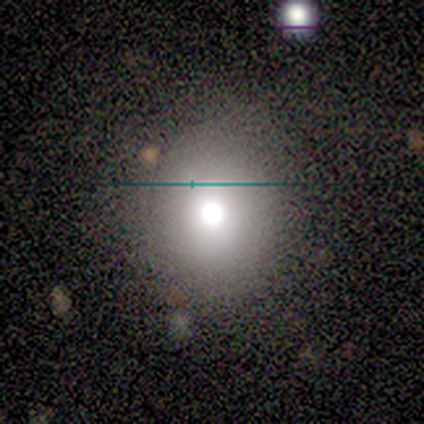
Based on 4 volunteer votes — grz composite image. It shows a smooth galaxy with no disk features (50%, tied with featured or disk) that is round (100%). Merging: none (75%).